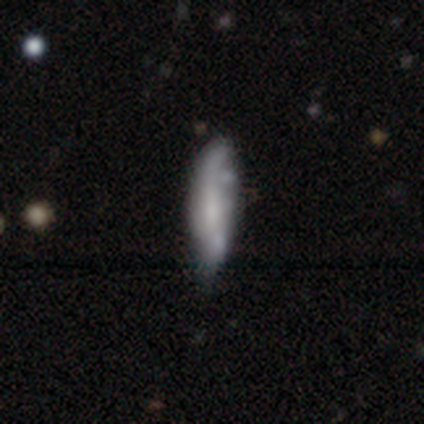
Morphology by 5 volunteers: Volunteers were most divided on "smooth or featured": smooth: 60%, featured or disk: 40%, star or artifact: 0%. Remaining: how rounded — cigar-shaped (67%); merging — none (40%).